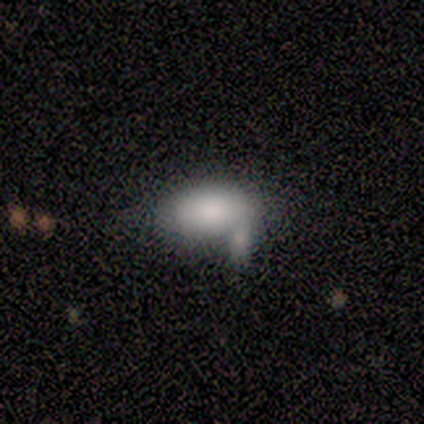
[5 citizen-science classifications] Smooth or featured? 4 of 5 (80%) said smooth. How rounded? 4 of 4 (100%) said in between. Merging? 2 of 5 (40%) said minor disturbance.